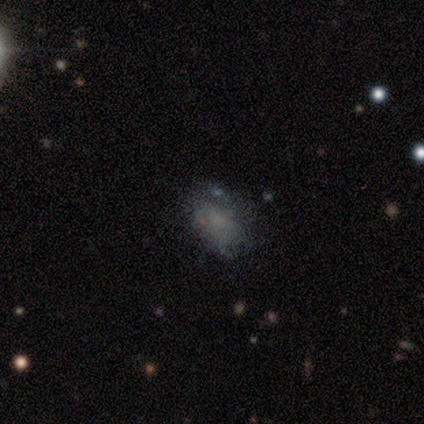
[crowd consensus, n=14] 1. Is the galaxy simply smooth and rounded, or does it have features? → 93% smooth, 7% featured or disk, 0% star or artifact.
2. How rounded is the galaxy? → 100% in between, 0% round, 0% cigar-shaped.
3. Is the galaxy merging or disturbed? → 71% none, 21% minor disturbance, 7% merger, 0% major disturbance.